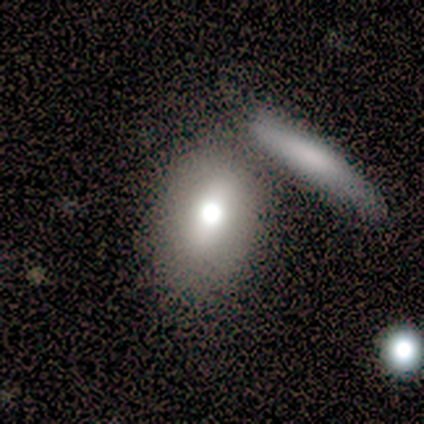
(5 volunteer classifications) This appears to be a smooth galaxy with no disk features (60%) that is in between round and cigar-shaped (100%). Merging: minor disturbance (40%).